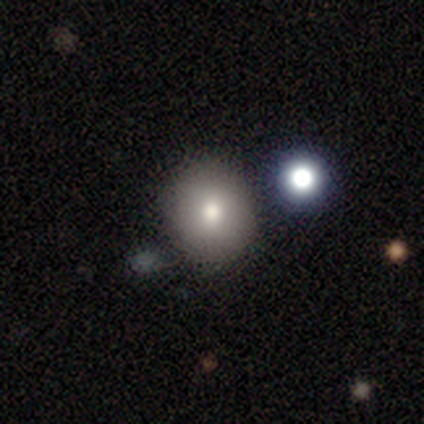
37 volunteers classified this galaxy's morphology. smooth-or-featured: smooth: 73% | star or artifact: 22% | featured or disk: 5%
  how-rounded: round: 85% | in between: 15% | cigar-shaped: 0%
  merging: none: 79% | minor disturbance: 17% | merger: 3% | major disturbance: 0%